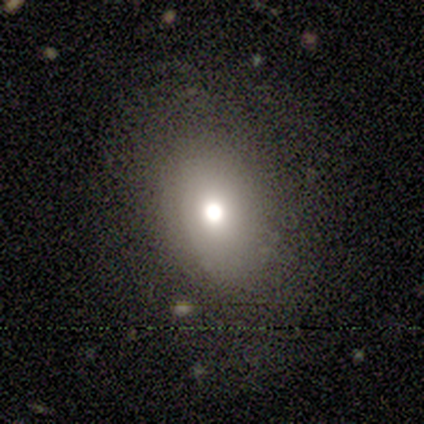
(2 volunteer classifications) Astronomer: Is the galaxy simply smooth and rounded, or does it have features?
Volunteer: smooth — 100%.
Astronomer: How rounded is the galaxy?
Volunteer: in between — 100%.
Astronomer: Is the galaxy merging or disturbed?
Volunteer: none — 100%.